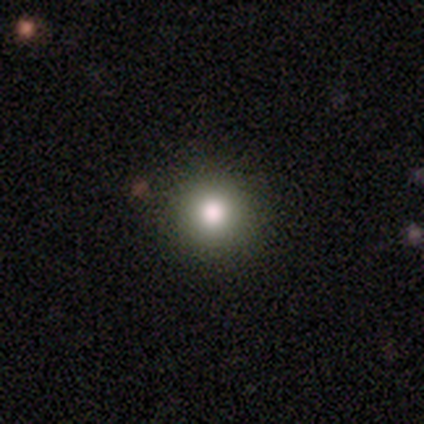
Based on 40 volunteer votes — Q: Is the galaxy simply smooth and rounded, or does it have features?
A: smooth — 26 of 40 (65%).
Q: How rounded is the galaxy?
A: round — 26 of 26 (100%).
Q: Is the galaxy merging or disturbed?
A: none — 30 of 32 (94%).